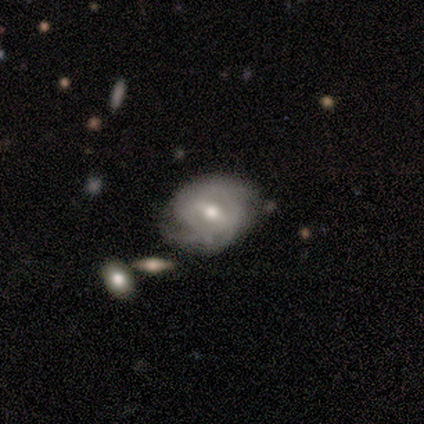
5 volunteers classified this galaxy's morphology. A featured or disk galaxy (100%) with a weak bar (80%), 2 (50%, tied with can't tell) tight (75%) spiral arms (80%) and a moderate central bulge (60%).

Vote fractions:
- Smooth or featured? featured or disk: 100% / smooth: 0% / star or artifact: 0%
- Edge-on disk? no: 100% / yes: 0%
- Bar? weak: 80% / strong: 20% / no: 0%
- Spiral arms? yes: 80% / no: 20%
- Spiral winding? tight: 75% / loose: 25% / medium: 0%
- Spiral arm count? 2: 50% (tied) / can't tell: 50% (tied) / 1: 0% / 3: 0% / 4: 0% / more than 4: 0%
- Bulge size? moderate: 60% / dominant: 20% / large: 20% / small: 0% / none: 0%
- Merging? none: 100% / minor disturbance: 0% / major disturbance: 0% / merger: 0%